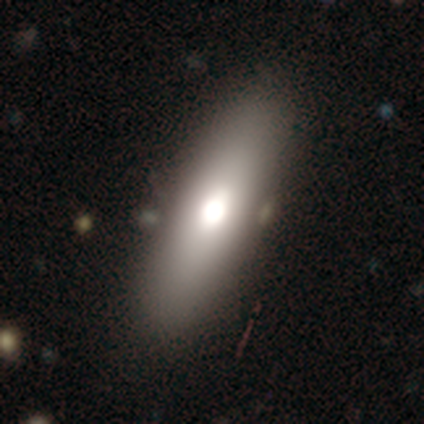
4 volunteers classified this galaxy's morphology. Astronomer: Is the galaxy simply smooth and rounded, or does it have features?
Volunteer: smooth — 75%.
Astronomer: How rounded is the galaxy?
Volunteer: in between — 67%.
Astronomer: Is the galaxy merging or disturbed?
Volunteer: none — 100%.